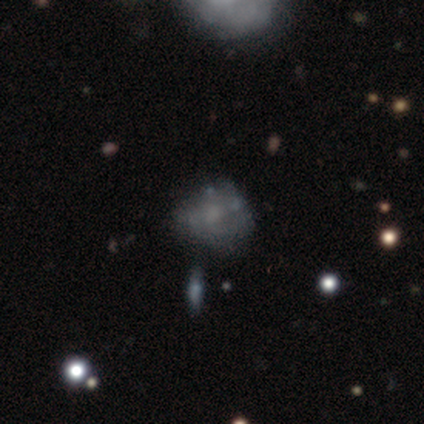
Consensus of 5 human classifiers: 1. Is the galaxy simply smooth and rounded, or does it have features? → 80% featured or disk, 20% smooth, 0% star or artifact.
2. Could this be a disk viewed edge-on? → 100% no, 0% yes.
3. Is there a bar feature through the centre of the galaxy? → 100% no, 0% strong, 0% weak.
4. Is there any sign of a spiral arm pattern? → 50% yes (tied), 50% no (tied).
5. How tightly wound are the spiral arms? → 50% medium (tied), 50% loose (tied), 0% tight.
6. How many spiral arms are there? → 50% 2 (tied), 50% 4 (tied), 0% 1, 0% 3, 0% more than 4, 0% can't tell.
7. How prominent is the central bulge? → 50% small, 25% moderate, 25% none, 0% dominant, 0% large.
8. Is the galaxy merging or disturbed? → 40% none (tied), 40% merger (tied), 20% major disturbance, 0% minor disturbance.